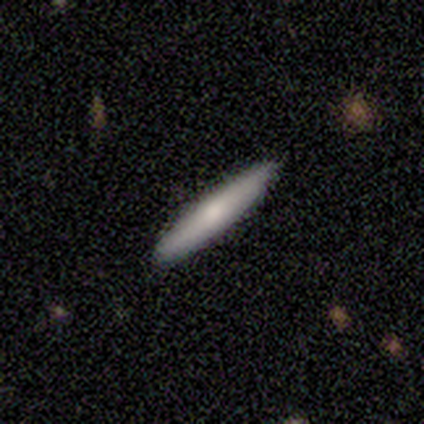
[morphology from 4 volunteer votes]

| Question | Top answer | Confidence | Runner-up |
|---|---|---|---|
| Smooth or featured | smooth | 75% | featured or disk (25%) |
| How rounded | cigar-shaped | 100% | — |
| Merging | none | 75% | minor disturbance (25%) |